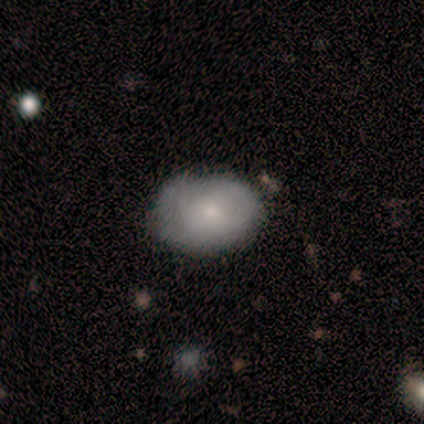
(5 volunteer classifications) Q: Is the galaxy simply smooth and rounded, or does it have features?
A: smooth — 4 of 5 (80%).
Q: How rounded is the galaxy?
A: in between — 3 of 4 (75%).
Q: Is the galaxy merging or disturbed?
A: none — 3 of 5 (60%).